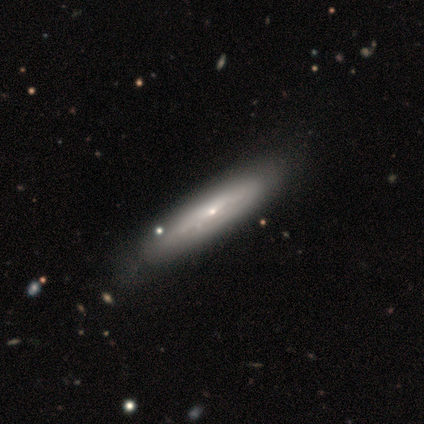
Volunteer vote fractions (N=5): smooth-or-featured: featured or disk: 60% | smooth: 40% | star or artifact: 0%
  disk-edge-on: no: 100% | yes: 0%
    bar: no: 100% | strong: 0% | weak: 0%
    has-spiral-arms: no: 67% | yes: 33%
    bulge-size: small: 100% | dominant: 0% | large: 0% | moderate: 0% | none: 0%
  merging: none: 100% | minor disturbance: 0% | major disturbance: 0% | merger: 0%